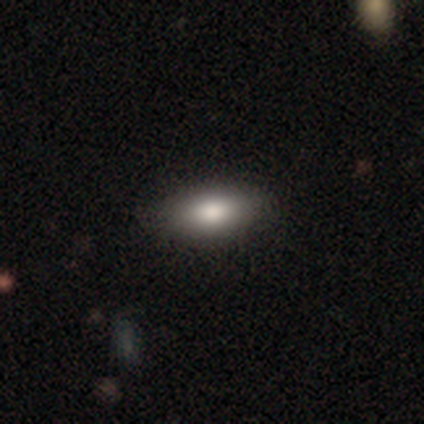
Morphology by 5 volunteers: type=smooth (100%); roundness=in between (100%); merging=none (60%).